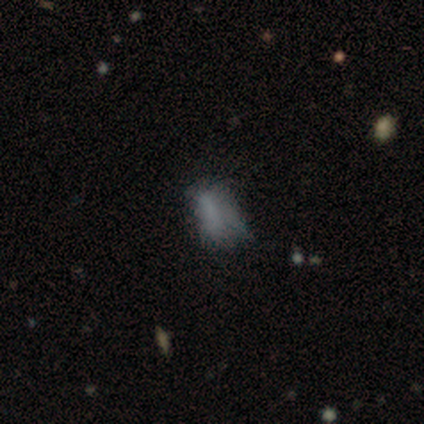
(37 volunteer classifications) This is possibly a smooth galaxy (46%). How rounded: clearly in between (94%). Merging: marginally minor disturbance (38%).